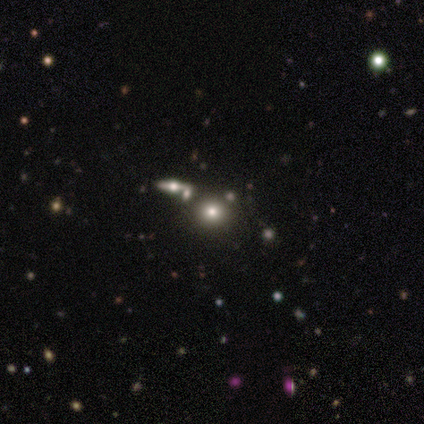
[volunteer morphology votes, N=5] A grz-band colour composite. It shows a smooth galaxy with no disk features (60%) that is round (100%). Merging: none (100%).